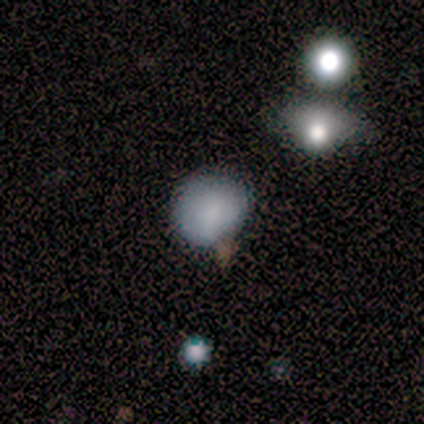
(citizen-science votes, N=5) Volunteers were most divided on "how rounded": round: 60%, in between: 40%, cigar-shaped: 0%. More confident: smooth or featured — smooth (100%); merging — none (60%).